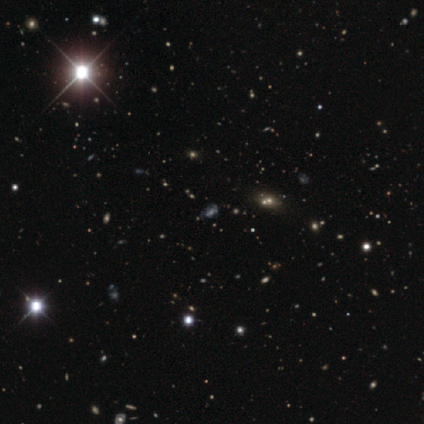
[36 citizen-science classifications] Volunteers were most divided on "smooth or featured": star or artifact: 69%, featured or disk: 19%, smooth: 11%.